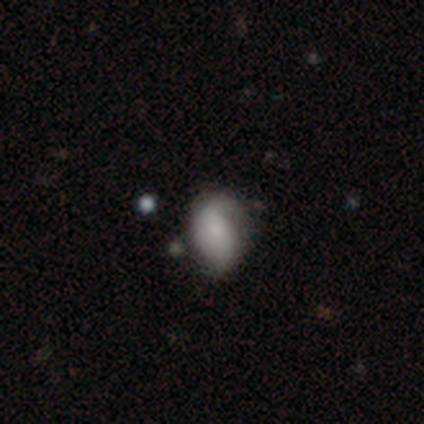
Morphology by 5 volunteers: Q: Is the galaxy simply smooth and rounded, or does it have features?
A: featured or disk — 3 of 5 (60%).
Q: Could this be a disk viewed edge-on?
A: no — 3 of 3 (100%).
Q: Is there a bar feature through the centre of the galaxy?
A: no — 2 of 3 (67%).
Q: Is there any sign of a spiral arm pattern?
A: no — 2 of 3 (67%).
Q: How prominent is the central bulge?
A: moderate — 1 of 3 (33%, tied with small and none).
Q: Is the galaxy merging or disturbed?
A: minor disturbance — 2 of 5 (40%, tied with major disturbance).